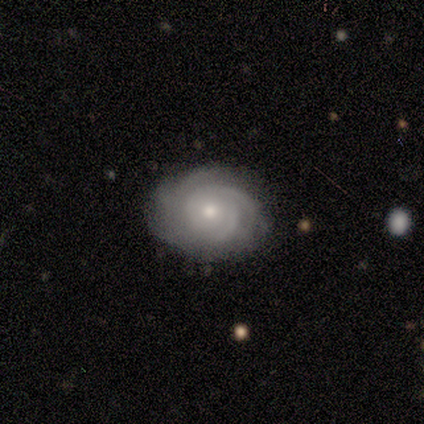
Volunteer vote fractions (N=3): Smooth or featured? 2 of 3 (67%) said featured or disk. Edge-on disk? 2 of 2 (100%) said no. Bar? 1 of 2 (50%, tied with no) said weak. Spiral arms? 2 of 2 (100%) said yes. Spiral winding? 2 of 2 (100%) said tight. Spiral arm count? 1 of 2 (50%, tied with 4) said 1. Bulge size? 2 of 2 (100%) said moderate. Merging? 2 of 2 (100%) said none.